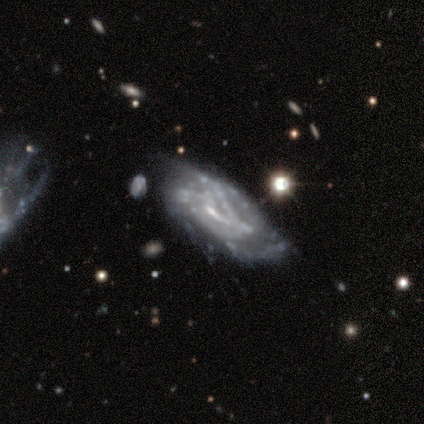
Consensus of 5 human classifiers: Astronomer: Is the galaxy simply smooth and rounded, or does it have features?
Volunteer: featured or disk — 100%.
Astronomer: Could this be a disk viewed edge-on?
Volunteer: no — 100%.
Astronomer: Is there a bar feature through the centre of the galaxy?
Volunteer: no — 80%.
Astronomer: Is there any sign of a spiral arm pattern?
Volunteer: yes — 60% (runner-up: no, 40%).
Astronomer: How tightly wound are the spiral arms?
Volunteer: medium — 67%.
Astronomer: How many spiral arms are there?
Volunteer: can't tell — 67%.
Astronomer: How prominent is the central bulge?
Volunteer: none — 60% (runner-up: small, 40%).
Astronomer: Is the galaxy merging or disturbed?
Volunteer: major disturbance — 80%.